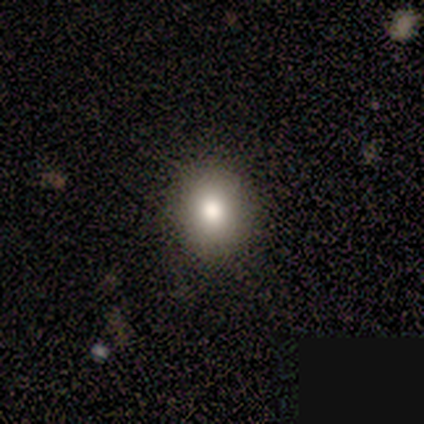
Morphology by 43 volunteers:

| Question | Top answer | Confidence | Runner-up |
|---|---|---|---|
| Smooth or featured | smooth | 60% | star or artifact (23%) |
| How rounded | round | 81% | in between (15%) |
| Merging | none | 88% | minor disturbance (9%) |